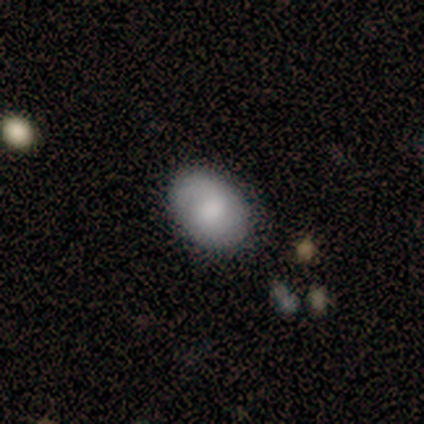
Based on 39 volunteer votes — Morphology: type=smooth (69%); roundness=in between (74%); merging=none (81%).